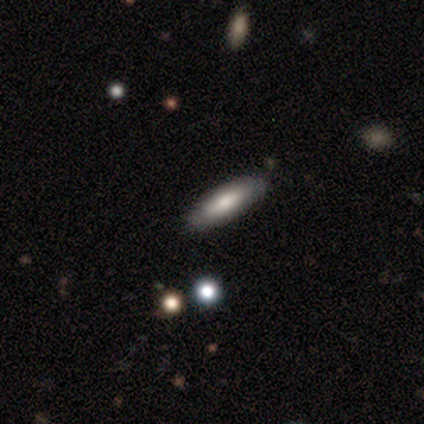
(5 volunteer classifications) This appears to be a smooth galaxy with no disk features (60%) that is cigar-shaped (67%). Merging: none (100%).